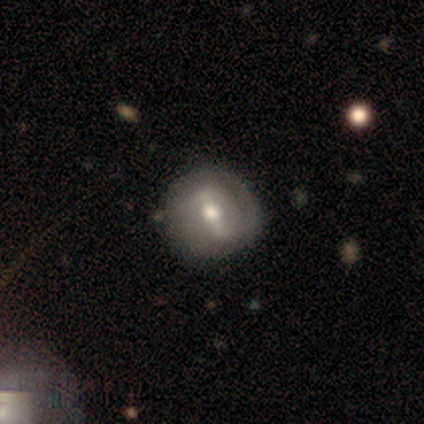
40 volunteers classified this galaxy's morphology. Smooth or featured? featured or disk (80%)
Edge-on disk? no (100%)
Bar? strong (53%)
Spiral arms? yes (84%)
Spiral winding? tight (63%)
Spiral arm count? 2 (56%)
Bulge size? moderate (84%)
Merging? none (59%)